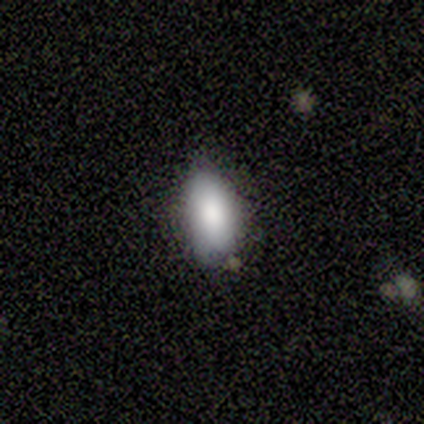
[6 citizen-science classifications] Overall: smooth (67%). How rounded: in between (100%). Merging: none (80%).